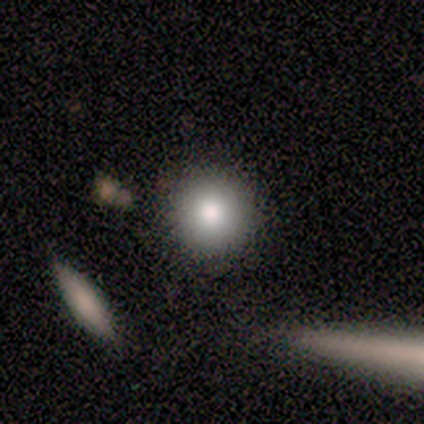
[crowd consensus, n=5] Overall: smooth (60%; star or artifact 40%). How rounded: round (100%). Merging: none (100%).